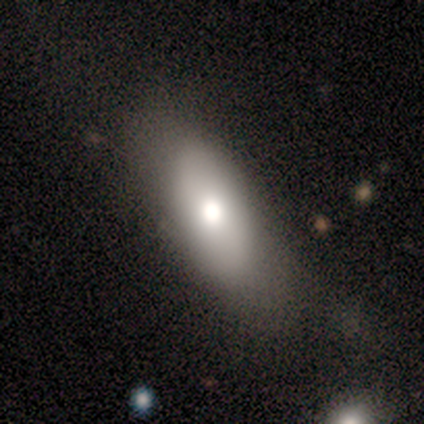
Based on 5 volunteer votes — Q: Smooth or featured?
A: smooth (80%); runner-up: featured or disk (20%)
Q: How rounded?
A: in between (100%)
Q: Merging?
A: none (40%); tied with: major disturbance (40%)